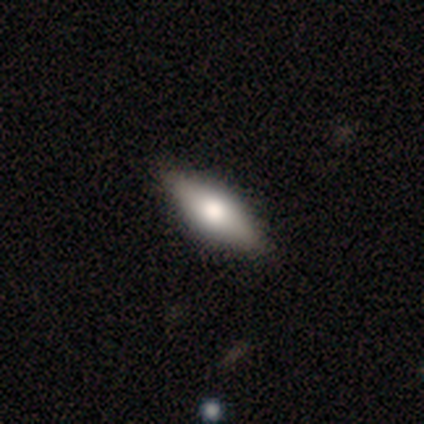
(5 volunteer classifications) Smooth or featured: smooth — 60% (featured or disk — 20%)
How rounded: in between — 67% (cigar-shaped — 33%)
Merging: none — 100%